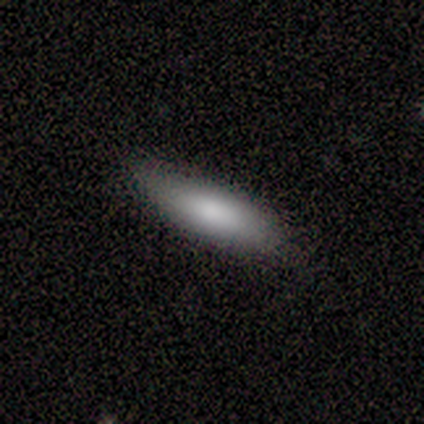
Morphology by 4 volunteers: A smooth galaxy with no disk features (100%) that is cigar-shaped (75%). Merging: none (100%).